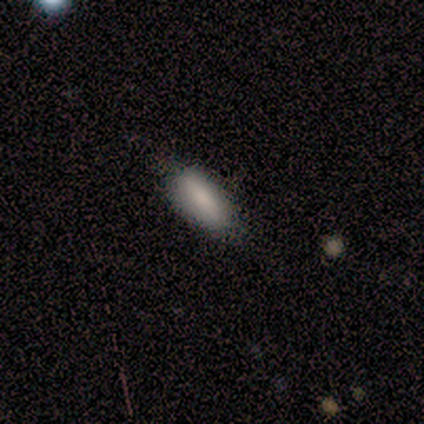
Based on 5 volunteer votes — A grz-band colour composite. It shows a smooth galaxy with no disk features (80%) that is cigar-shaped (75%). Merging: none (80%).